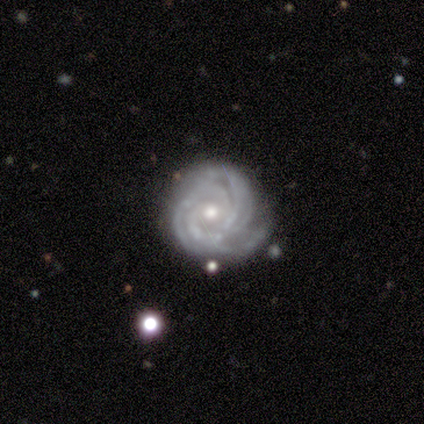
Smooth or featured: featured or disk — 98% (smooth — 2%)
Edge-on disk: no — 93% (yes — 7%)
Bar: no — 79% (weak — 16%)
Spiral arms: yes — 100%
Spiral winding: tight — 74% (medium — 26%)
Spiral arm count: 3 — 37% (4 — 24%)
Bulge size: moderate — 63% (small — 34%)
Merging: none — 64% (minor disturbance — 33%)